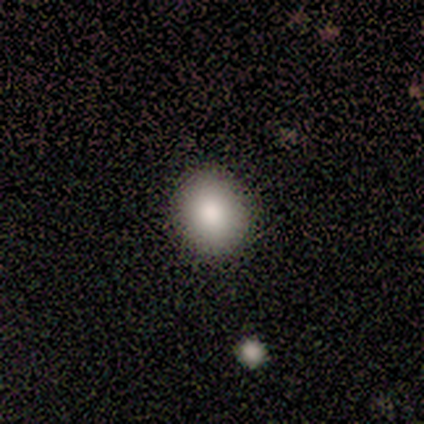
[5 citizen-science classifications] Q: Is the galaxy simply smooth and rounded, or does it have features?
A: smooth — 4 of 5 (80%).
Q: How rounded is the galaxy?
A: round — 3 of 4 (75%).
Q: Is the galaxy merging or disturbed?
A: none — 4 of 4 (100%).